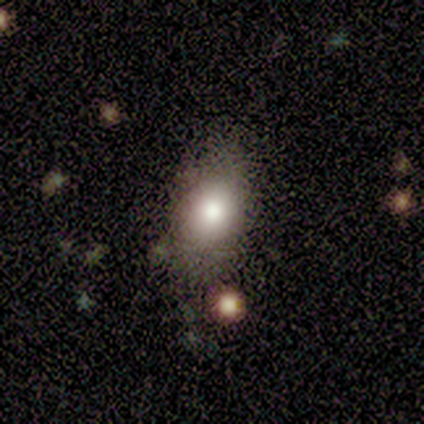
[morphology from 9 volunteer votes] Smooth or featured: smooth — 89% (star or artifact — 11%)
How rounded: in between — 100%
Merging: none — 62% (minor disturbance — 38%)